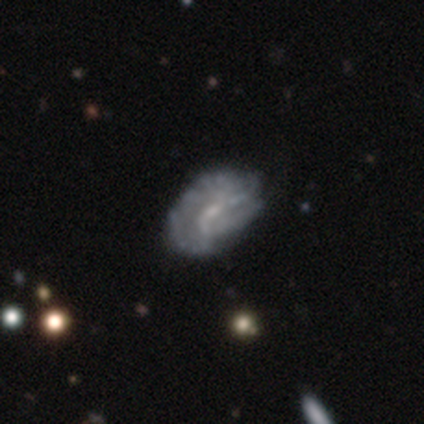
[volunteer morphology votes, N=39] smooth_or_featured: featured or disk (p=0.82) [alt: smooth p=0.10]
disk_edge_on: no (p=1.00)
bar: weak (p=0.50) [alt: no p=0.44]
has_spiral_arms: yes (p=0.69) [alt: no p=0.31]
spiral_winding: tight (p=0.36) [alt: medium p=0.32]
spiral_arm_count: 2 (p=0.36) [tied with: can't tell p=0.36]
bulge_size: small (p=0.75) [alt: none p=0.16]
merging: major disturbance (p=0.22) [alt: none p=0.19]